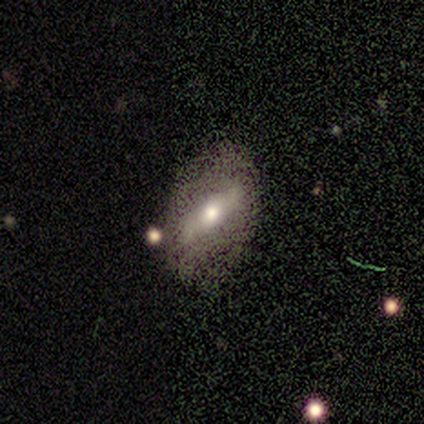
A featured or disk galaxy (80%) with a strong bar (67%), no spiral arms (67%) and a moderate central bulge (100%). Merging: none (100%).